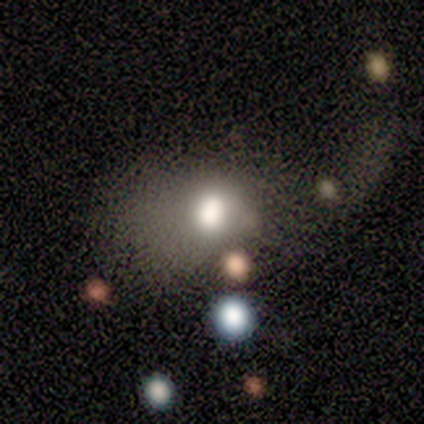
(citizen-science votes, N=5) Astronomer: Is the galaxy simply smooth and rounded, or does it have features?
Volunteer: smooth — 100%.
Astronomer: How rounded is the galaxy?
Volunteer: in between — 60% (runner-up: round, 40%).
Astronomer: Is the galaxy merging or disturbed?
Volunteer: merger — 60%.